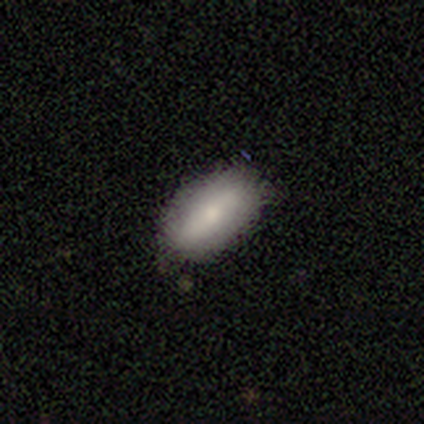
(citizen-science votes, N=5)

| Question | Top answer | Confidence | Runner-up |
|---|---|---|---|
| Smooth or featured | smooth | 80% | star or artifact (20%) |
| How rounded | in between | 100% | — |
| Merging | none | 100% | — |